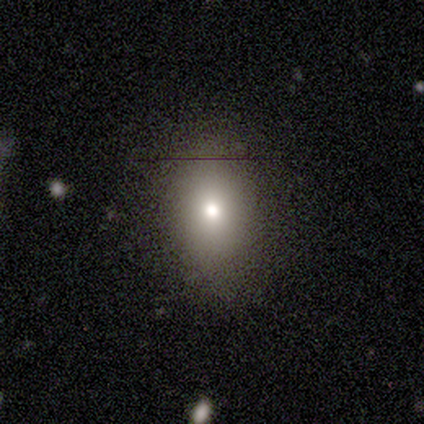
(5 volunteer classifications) Smooth or featured? 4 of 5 (80%) said smooth. How rounded? 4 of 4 (100%) said in between. Merging? 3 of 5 (60%) said none.